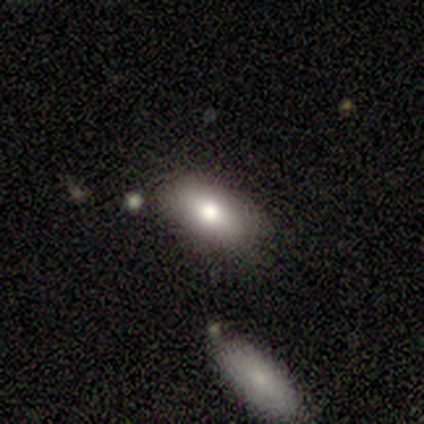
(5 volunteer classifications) Smooth or featured: featured or disk — 60% (smooth — 40%)
Edge-on disk: no — 67% (yes — 33%)
Bar: no — 100%
Spiral arms: no — 100%
Bulge size: moderate — 100%
Merging: none — 100%